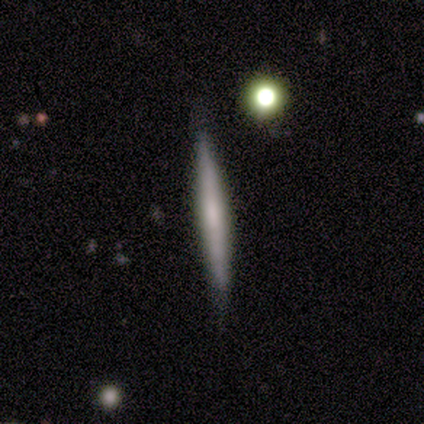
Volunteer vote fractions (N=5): Q: Smooth or featured?
A: smooth (80%); runner-up: featured or disk (20%)
Q: How rounded?
A: cigar-shaped (100%)
Q: Merging?
A: none (80%); runner-up: minor disturbance (20%)